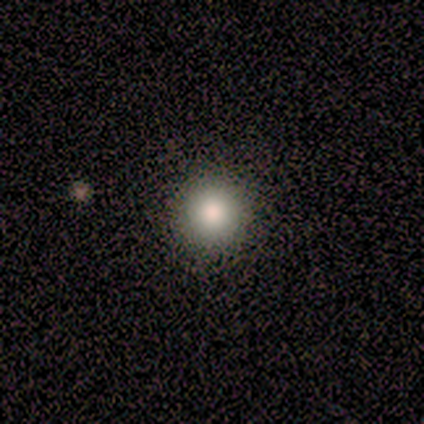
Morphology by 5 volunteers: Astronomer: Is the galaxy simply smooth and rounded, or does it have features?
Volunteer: smooth — 100%.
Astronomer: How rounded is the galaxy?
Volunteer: round — 80%.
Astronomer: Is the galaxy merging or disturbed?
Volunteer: none — 80%.